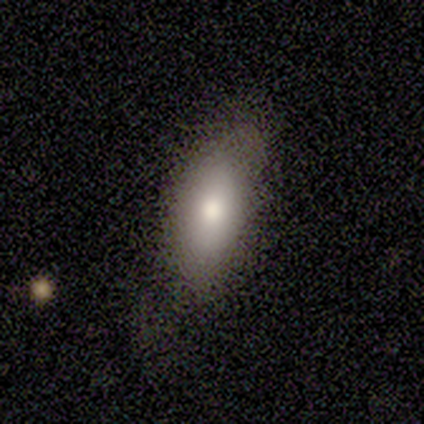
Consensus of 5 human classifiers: Smooth or featured? smooth (80%)
How rounded? in between (100%)
Merging? minor disturbance (50%)